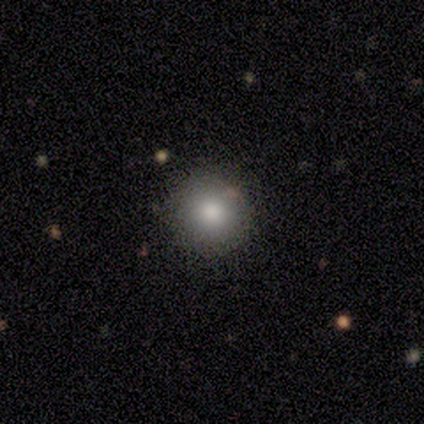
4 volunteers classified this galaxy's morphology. smooth 75%, featured or disk 25%, star or artifact 0%. Down the decision tree: how rounded — round (100%); merging — none (100%).